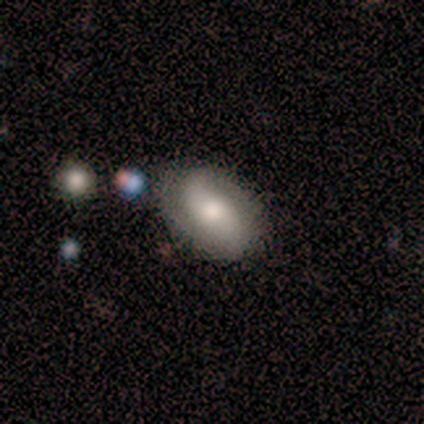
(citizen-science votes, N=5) Smooth or featured: featured or disk — 60% (smooth — 40%)
Edge-on disk: no — 100%
Bar: no — 100%
Spiral arms: yes — 100%
Spiral winding: medium — 67% (tight — 33%)
Spiral arm count: 2 — 67% (can't tell — 33%)
Bulge size: small — 67% (moderate — 33%)
Merging: none — 100%